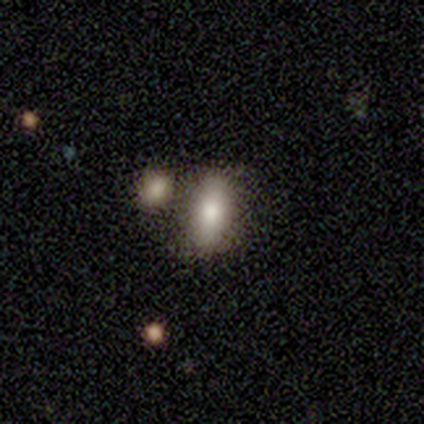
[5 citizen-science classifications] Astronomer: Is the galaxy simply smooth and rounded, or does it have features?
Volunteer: smooth — 80%.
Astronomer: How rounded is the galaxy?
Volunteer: in between — 100%.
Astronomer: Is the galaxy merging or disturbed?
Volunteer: none — 75%.